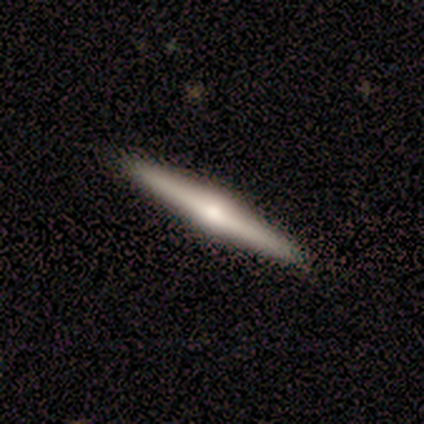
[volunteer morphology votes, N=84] featured or disk 71%, smooth 24%, star or artifact 5%. Down the decision tree: edge-on disk — yes (100%); edge-on bulge — rounded (90%); merging — none (95%).